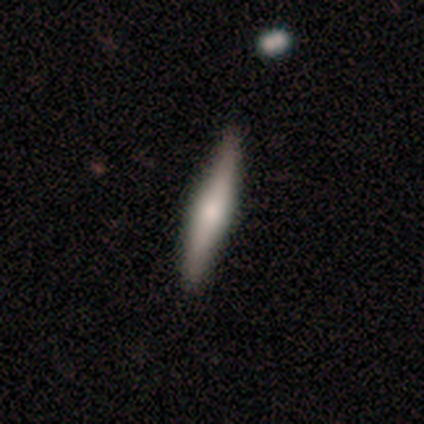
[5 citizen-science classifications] Smooth or featured? 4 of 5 (80%) said featured or disk. Edge-on disk? 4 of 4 (100%) said yes. Edge-on bulge? 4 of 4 (100%) said rounded. Merging? 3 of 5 (60%) said none.